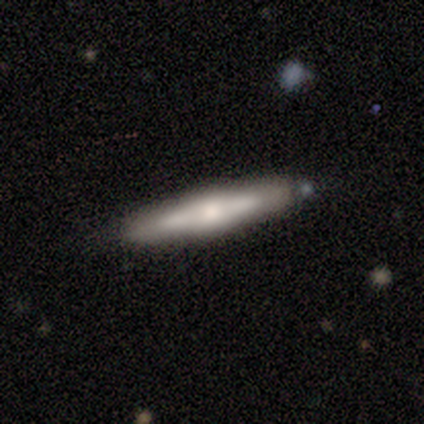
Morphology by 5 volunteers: featured or disk 100%, smooth 0%, star or artifact 0%. Down the decision tree: edge-on disk — yes (100%); edge-on bulge — rounded (80%); merging — none (60%).